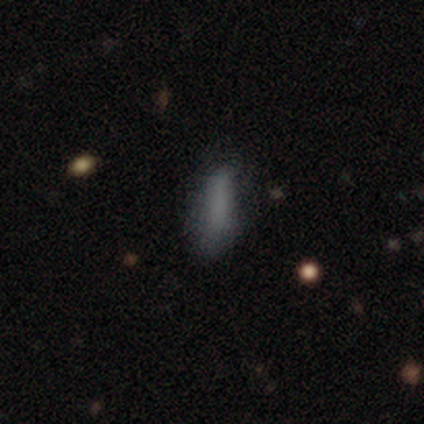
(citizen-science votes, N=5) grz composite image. It shows a smooth galaxy with no disk features (80%) that is cigar-shaped (75%). Merging: none (60%).